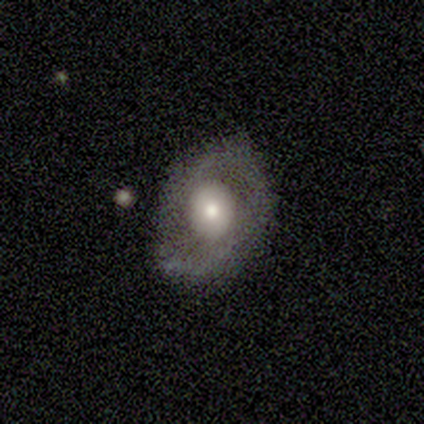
This is clearly a featured or disk galaxy (80%). It is clearly not viewed edge-on (100%). Bar: possibly weak (50%, tied with no). Spiral arm pattern: possibly yes (50%, tied with no). Spiral arm count: clearly 2 (100%). Spiral winding: possibly tight (50%, tied with medium). Central bulge: clearly moderate (100%). Merging: clearly none (80%).